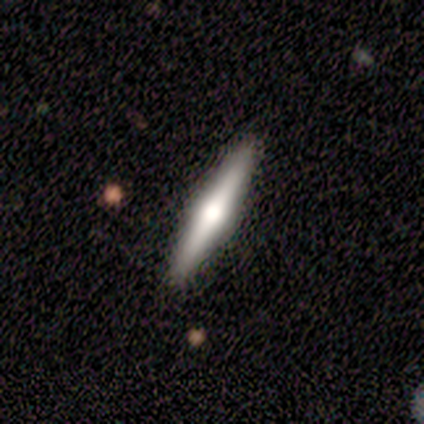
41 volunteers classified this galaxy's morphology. Smooth or featured? featured or disk (73%)
Edge-on disk? yes (97%)
Edge-on bulge? rounded (93%)
Merging? none (85%)